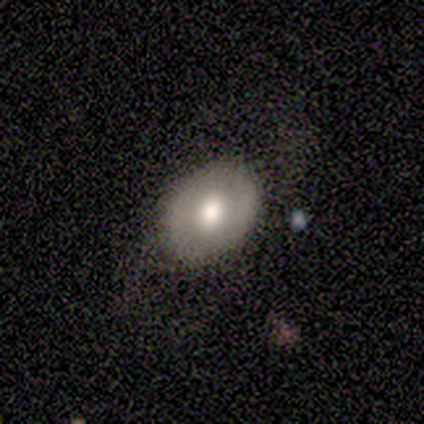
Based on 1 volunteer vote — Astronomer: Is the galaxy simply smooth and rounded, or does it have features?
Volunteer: featured or disk — 100%.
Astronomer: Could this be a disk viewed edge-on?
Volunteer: no — 100%.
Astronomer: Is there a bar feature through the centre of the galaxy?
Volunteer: no — 100%.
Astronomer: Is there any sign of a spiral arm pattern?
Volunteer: no — 100%.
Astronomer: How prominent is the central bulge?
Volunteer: moderate — 100%.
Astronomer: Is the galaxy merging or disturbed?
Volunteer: minor disturbance — 100%.